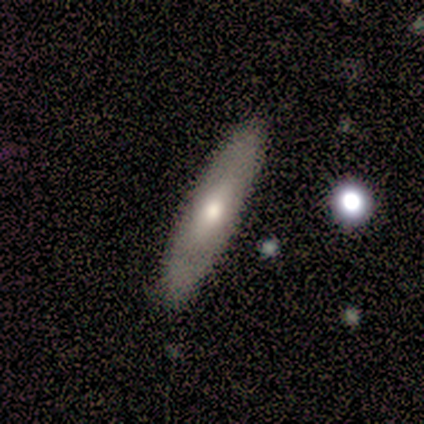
Q: Smooth or featured?
A: smooth (80%); runner-up: featured or disk (20%)
Q: How rounded?
A: cigar-shaped (100%)
Q: Merging?
A: none (100%)